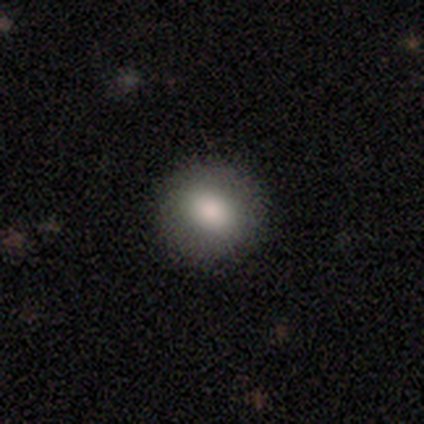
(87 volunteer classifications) smooth 89%, featured or disk 8%, star or artifact 3%. Down the decision tree: how rounded — round (77%); merging — none (88%).